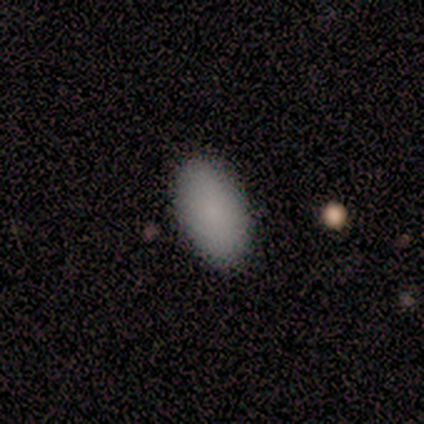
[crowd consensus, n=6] A smooth galaxy with no disk features (83%) that is in between round and cigar-shaped (100%). Merging: none (80%).